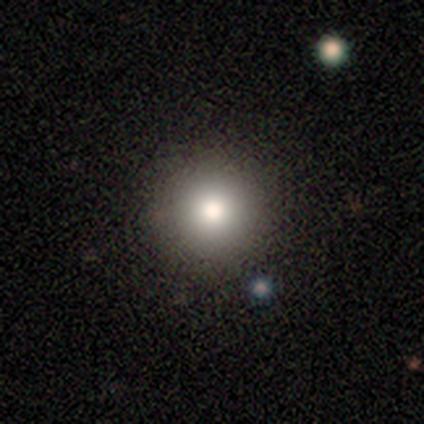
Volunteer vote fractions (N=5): Overall: smooth (100%). How rounded: round (100%). Merging: none (80%).